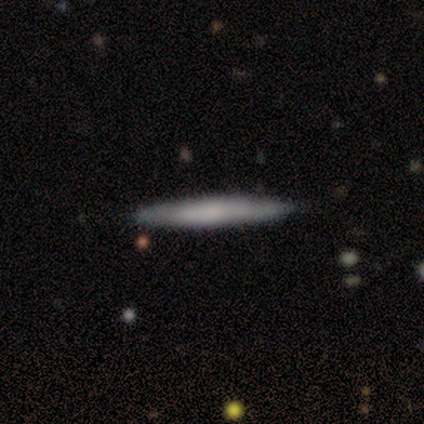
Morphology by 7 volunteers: smooth_or_featured: smooth (p=0.57) [alt: featured or disk p=0.43]
how_rounded: cigar-shaped (p=0.75) [alt: in between p=0.25]
merging: none (p=0.86) [alt: major disturbance p=0.14]